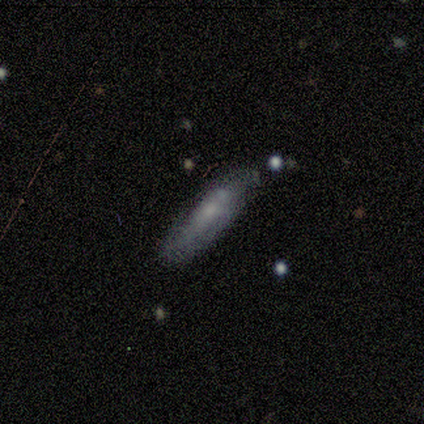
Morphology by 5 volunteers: Overall: featured or disk (80%). Edge-on disk: no (75%). Bar: no (67%; weak 33%). Spiral arms: yes (67%; no 33%). Spiral arm count: 1 (50%, tied with 2). Spiral winding: loose (100%). Bulge size: small (100%). Merging: none (75%).